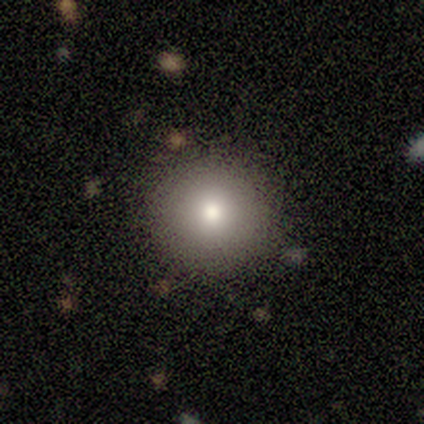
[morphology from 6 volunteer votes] Smooth or featured? 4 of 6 (67%) said smooth. How rounded? 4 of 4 (100%) said round. Merging? 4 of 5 (80%) said none.